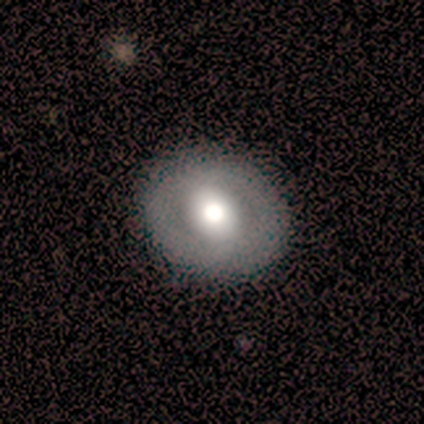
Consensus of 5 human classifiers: A smooth galaxy with no disk features (80%) that is round (50%, tied with in between).

Vote fractions:
- Smooth or featured? smooth: 80% / featured or disk: 20% / star or artifact: 0%
- How rounded? round: 50% (tied) / in between: 50% (tied) / cigar-shaped: 0%
- Merging? none: 100% / minor disturbance: 0% / major disturbance: 0% / merger: 0%